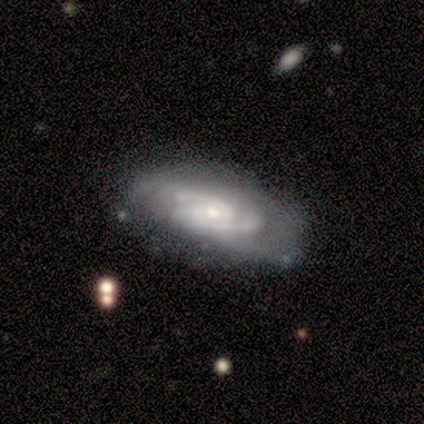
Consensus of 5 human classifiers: Smooth or featured? featured or disk (100%)
Edge-on disk? no (100%)
Bar? no (80%)
Spiral arms? yes (80%)
Spiral winding? tight (50%)
Spiral arm count? 2 (50%, tied with can't tell)
Bulge size? small (60%)
Merging? none (60%)